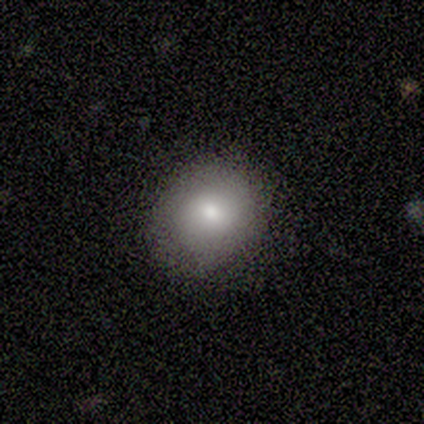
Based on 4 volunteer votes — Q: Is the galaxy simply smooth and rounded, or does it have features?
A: smooth — 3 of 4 (75%).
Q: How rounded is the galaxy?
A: round — 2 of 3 (67%).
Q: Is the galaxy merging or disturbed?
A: none — 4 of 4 (100%).